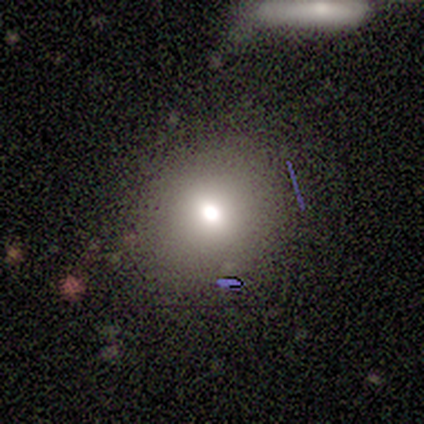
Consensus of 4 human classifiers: This appears to be a smooth galaxy with no disk features (75%) that is round (100%). Merging: minor disturbance (67%).